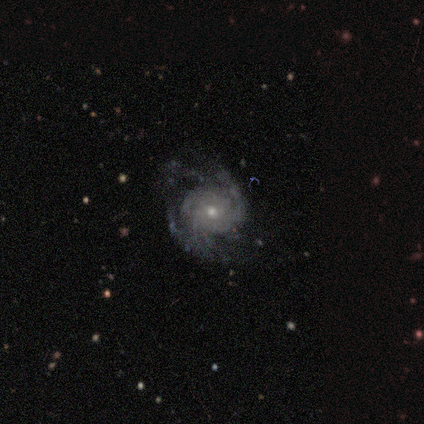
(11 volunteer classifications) This is likely a featured or disk galaxy (73%). It is clearly not viewed edge-on (100%). Bar: clearly no (88%). Spiral arm pattern: clearly yes (88%). Spiral arm count: marginally 2 (43%). Spiral winding: likely tight (71%). Central bulge: likely small (62%). Merging: possibly none (50%).